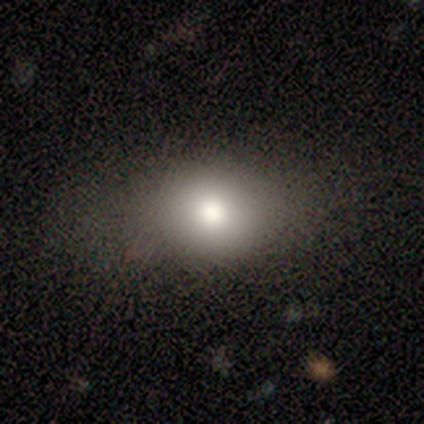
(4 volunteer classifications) A smooth galaxy with no disk features (100%) that is in between round and cigar-shaped (75%).

Vote fractions:
- Smooth or featured? smooth: 100% / featured or disk: 0% / star or artifact: 0%
- How rounded? in between: 75% / round: 25% / cigar-shaped: 0%
- Merging? none: 75% / minor disturbance: 25% / major disturbance: 0% / merger: 0%